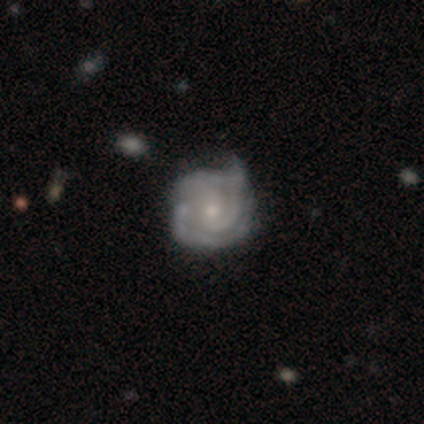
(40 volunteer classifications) Morphology: type=featured or disk (90%); edge-on=no (100%); bar=no (58%); spiral arms=yes (92%); winding=tight (70%); arm count=2 (42%); bulge=small (61%); merging=none (33%).